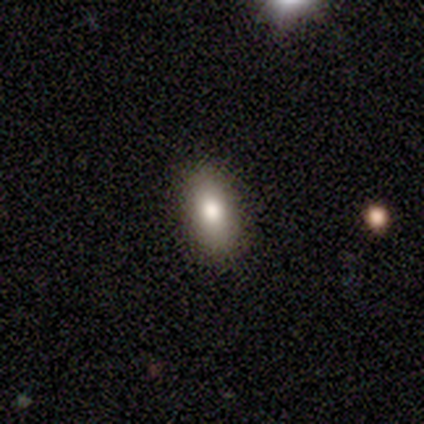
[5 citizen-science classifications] Smooth or featured? smooth (80%)
How rounded? in between (75%)
Merging? none (100%)